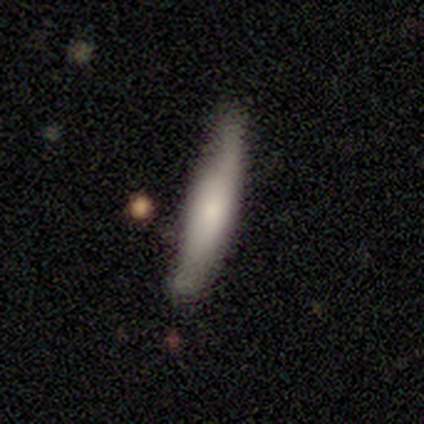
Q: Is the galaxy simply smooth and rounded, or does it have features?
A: smooth — 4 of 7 (57%).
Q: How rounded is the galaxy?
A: cigar-shaped — 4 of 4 (100%).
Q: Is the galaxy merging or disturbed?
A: none — 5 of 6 (83%).